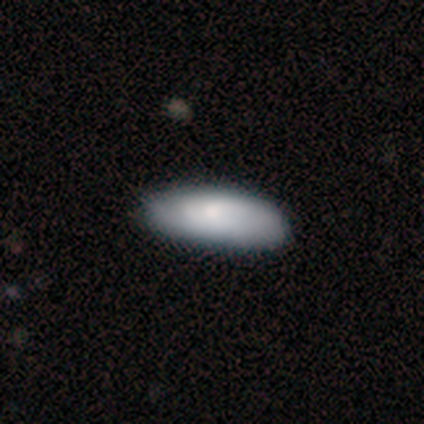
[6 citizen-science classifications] Volunteers were most divided on "how rounded": in between: 60%, cigar-shaped: 40%, round: 0%. More confident: smooth or featured — smooth (83%); merging — none (67%).